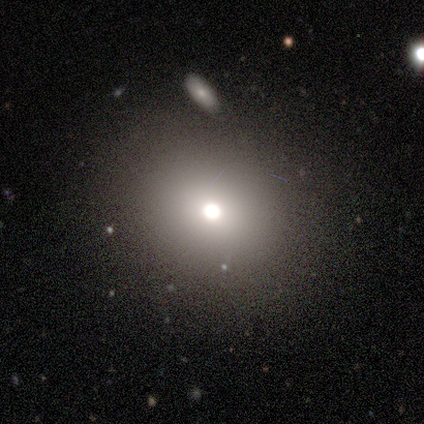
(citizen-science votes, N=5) A smooth galaxy with no disk features (60%) that is round (67%). Merging: none (100%).